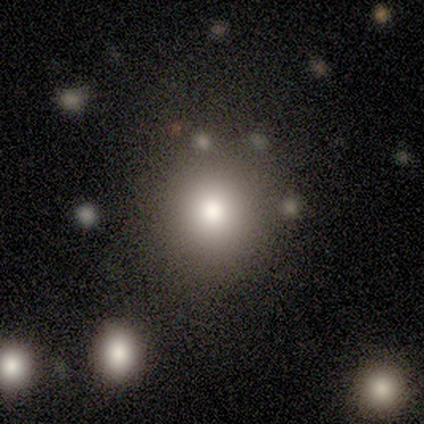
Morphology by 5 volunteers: This appears to be a smooth galaxy with no disk features (80%) that is round (100%). Merging: none (100%).